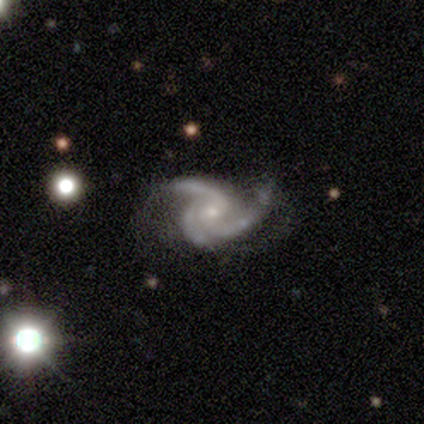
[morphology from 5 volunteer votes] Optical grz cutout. It shows a featured or disk galaxy (80%) with no bar (50%), 3 (100%) medium (75%) spiral arms (100%) and a small central bulge (75%). Merging: none (50%, tied with major disturbance).